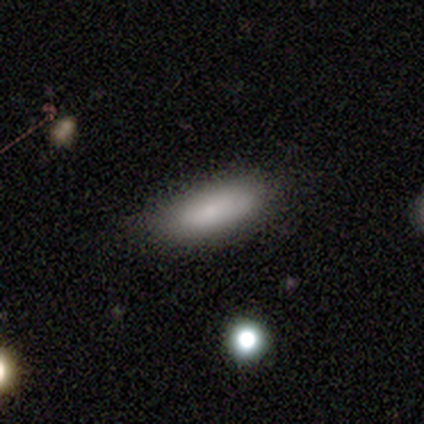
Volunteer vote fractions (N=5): Volunteers were most divided on "how rounded": in between: 80%, cigar-shaped: 20%, round: 0%. More confident: smooth or featured — smooth (100%); merging — none (80%).